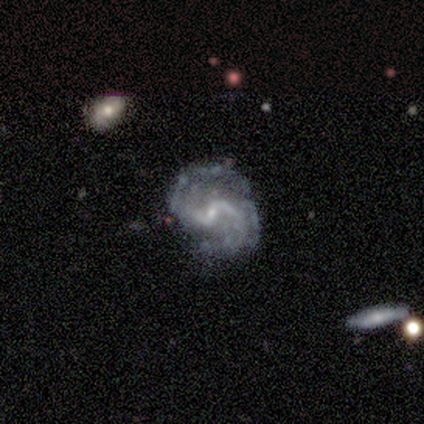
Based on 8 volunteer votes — Volunteers were most divided on "spiral winding" (2-way tie): medium: 43%, loose: 43%, tight: 14%. More confident: smooth or featured — featured or disk (100%); edge-on disk — no (100%); merging — none (100%); bar — weak (88%); spiral arms — yes (88%); bulge size — small (75%); spiral arm count — 2 (71%).